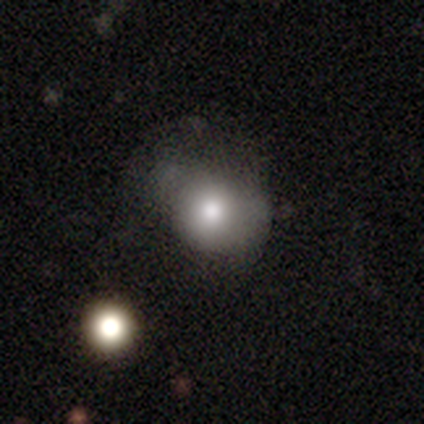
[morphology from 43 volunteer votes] Q: Smooth or featured?
A: smooth (70%); runner-up: star or artifact (16%)
Q: How rounded?
A: round (70%); runner-up: in between (27%)
Q: Merging?
A: none (39%); runner-up: minor disturbance (31%)